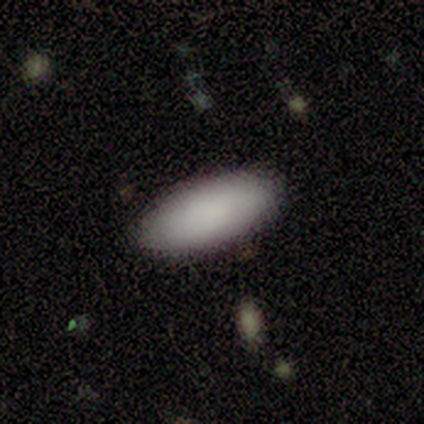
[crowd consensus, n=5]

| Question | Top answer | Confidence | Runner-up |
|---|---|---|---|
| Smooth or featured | smooth | 100% | — |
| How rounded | in between | 100% | — |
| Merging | none | 80% | minor disturbance (20%) |